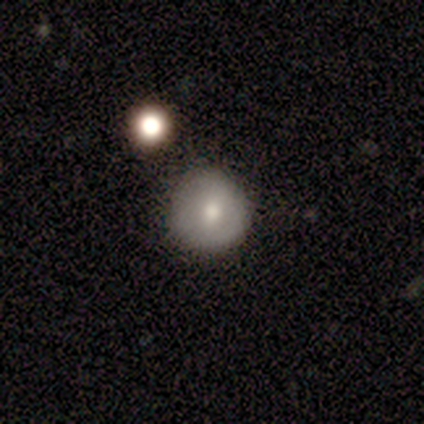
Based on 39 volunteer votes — smooth 54%, featured or disk 36%, star or artifact 10%. Down the decision tree: how rounded — round (100%); merging — none (89%).